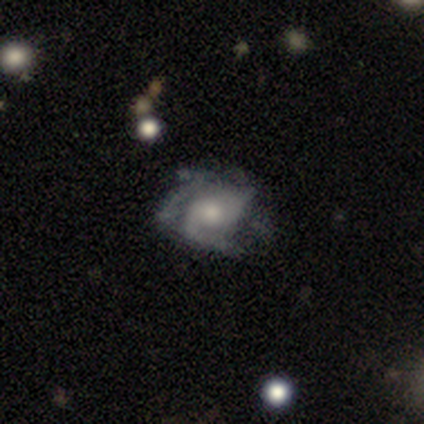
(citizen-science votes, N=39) Smooth or featured?
  - featured or disk: 82% *
  - smooth: 15%
  - star or artifact: 3%
Edge-on disk?
  - no: 100% *
  - yes: 0%
Bar?
  - no: 69% *
  - weak: 25%
  - strong: 6%
Spiral arms?
  - yes: 91% *
  - no: 9%
Spiral winding?
  - medium: 41% *
  - tight: 38%
  - loose: 21%
Spiral arm count?
  - 3: 31% *
  - 2: 21%
  - 4: 21%
  - can't tell: 17%
  - more than 4: 7%
  - 1: 3%
Bulge size?
  - moderate: 56% *
  - small: 31%
  - large: 9%
  - none: 3%
  - dominant: 0%
Merging?
  - none: 55% *
  - major disturbance: 26%
  - minor disturbance: 18%
  - merger: 0%